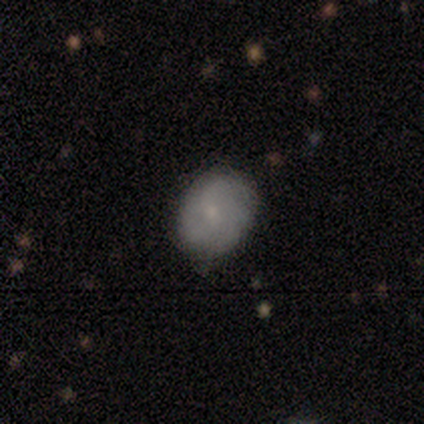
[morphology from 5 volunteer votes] smooth_or_featured: smooth (p=0.60) [alt: featured or disk p=0.40]
how_rounded: in between (p=0.67) [alt: round p=0.33]
merging: none (p=0.60) [alt: minor disturbance p=0.40]